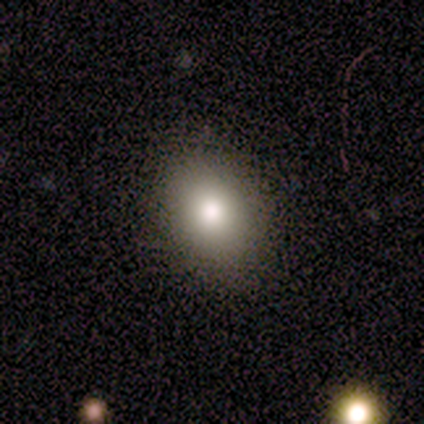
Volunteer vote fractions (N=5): Smooth or featured: smooth — 80% (featured or disk — 20%)
How rounded: in between — 75% (round — 25%)
Merging: none — 80% (minor disturbance — 20%)